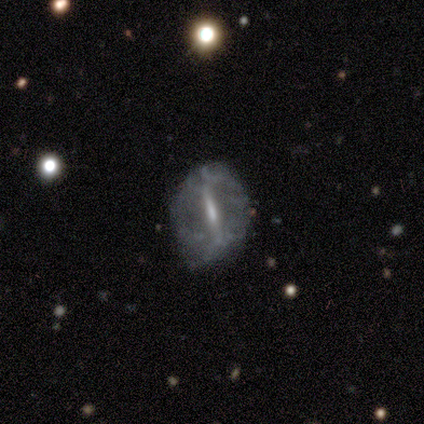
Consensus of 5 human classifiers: Q: Smooth or featured?
A: featured or disk (100%)
Q: Edge-on disk?
A: yes (60%); runner-up: no (40%)
Q: Edge-on bulge?
A: none (67%); runner-up: rounded (33%)
Q: Merging?
A: none (80%); runner-up: major disturbance (20%)